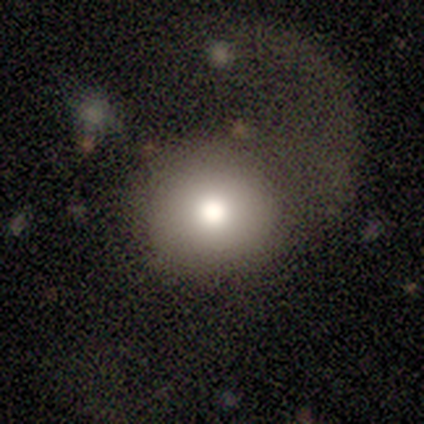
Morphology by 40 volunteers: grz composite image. It shows a smooth galaxy with no disk features (72%) that is round (100%). Merging: major disturbance (44%).